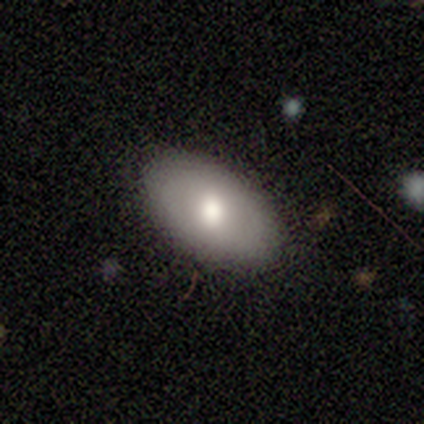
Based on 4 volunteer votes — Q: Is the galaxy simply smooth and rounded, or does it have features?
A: smooth — 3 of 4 (75%).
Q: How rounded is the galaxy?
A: in between — 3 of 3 (100%).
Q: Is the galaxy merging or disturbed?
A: none — 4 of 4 (100%).